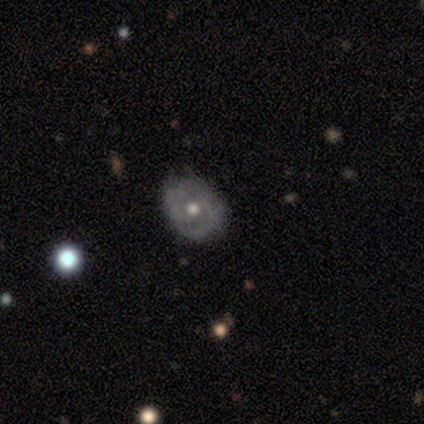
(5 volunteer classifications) A featured or disk galaxy (60%) with no bar (67%), 2 (67%) medium (67%) spiral arms (100%) and a moderate central bulge (100%). Merging: none (80%).